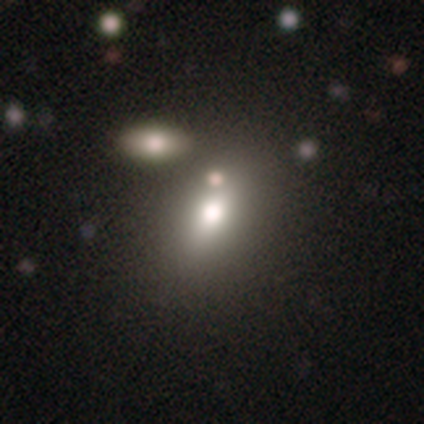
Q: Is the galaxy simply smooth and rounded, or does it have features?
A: smooth — 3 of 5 (60%).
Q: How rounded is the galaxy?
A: in between — 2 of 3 (67%).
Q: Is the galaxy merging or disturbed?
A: none — 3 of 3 (100%).